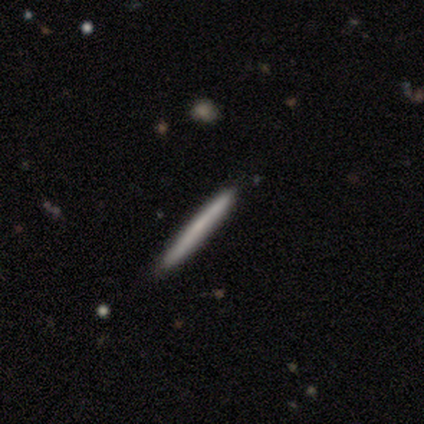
This is likely a featured or disk galaxy (60%). It is clearly viewed edge-on (100%). Edge-on bulge: clearly none (100%). Merging: likely none (60%).